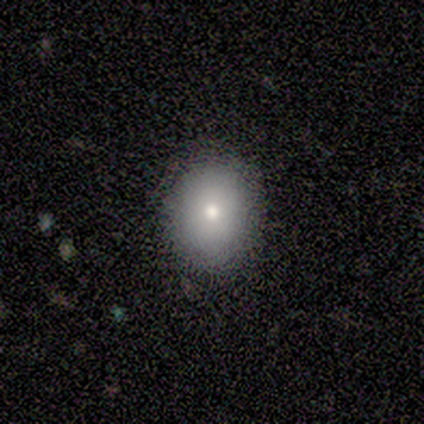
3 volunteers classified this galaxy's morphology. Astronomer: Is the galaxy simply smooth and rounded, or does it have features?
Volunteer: smooth — 100%.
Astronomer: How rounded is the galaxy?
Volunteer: round — 67%.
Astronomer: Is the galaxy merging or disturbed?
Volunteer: none — 100%.